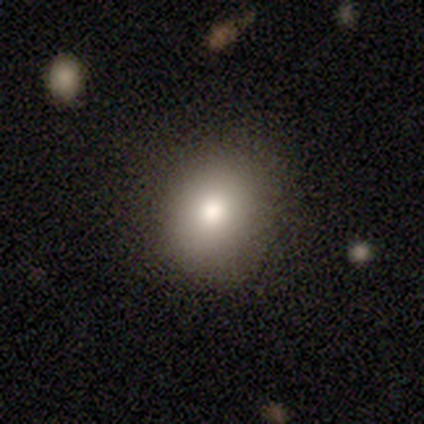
Smooth or featured?
  - featured or disk: 60% *
  - smooth: 40%
  - star or artifact: 0%
Edge-on disk?
  - no: 100% *
  - yes: 0%
Bar?
  - no: 100% *
  - strong: 0%
  - weak: 0%
Spiral arms?
  - no: 100% *
  - yes: 0%
Bulge size?
  - moderate: 67% *
  - large: 33%
  - dominant: 0%
  - small: 0%
  - none: 0%
Merging?
  - none: 80% *
  - minor disturbance: 20%
  - major disturbance: 0%
  - merger: 0%